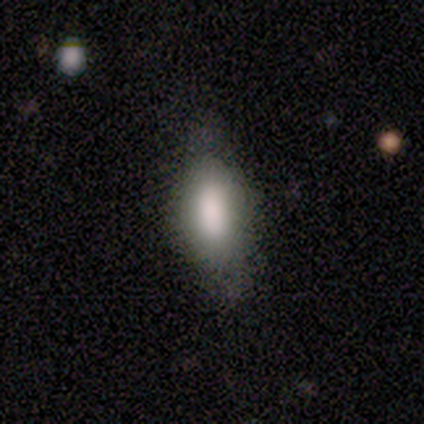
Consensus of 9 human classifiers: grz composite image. It shows a smooth galaxy with no disk features (78%) that is in between round and cigar-shaped (71%). Merging: none (50%, tied with minor disturbance).